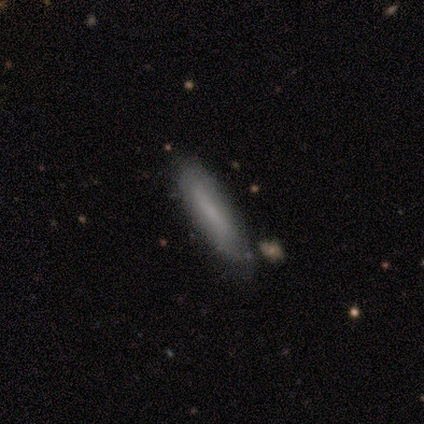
Volunteers were most divided on "smooth or featured": smooth: 80%, featured or disk: 20%, star or artifact: 0%. More confident: how rounded — cigar-shaped (100%); merging — none (80%).